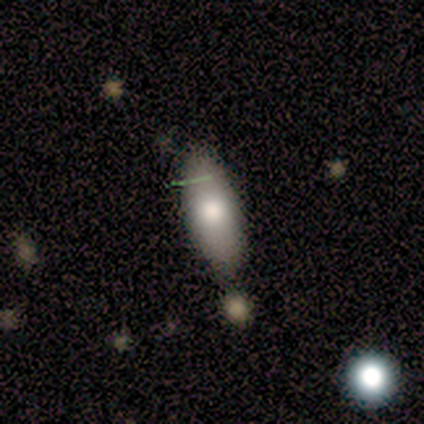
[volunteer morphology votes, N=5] This appears to be a smooth galaxy with no disk features (80%) that is in between round and cigar-shaped (100%). Merging: none (75%).